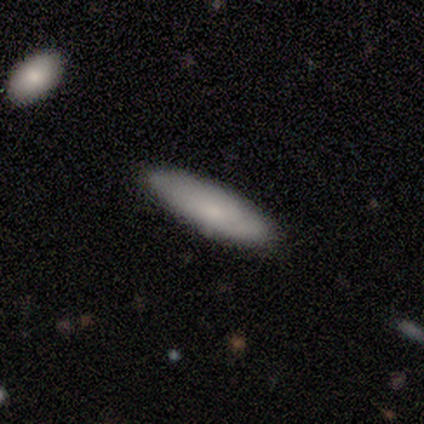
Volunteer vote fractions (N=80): Smooth or featured: smooth — 76% (featured or disk — 20%)
How rounded: in between — 56% (cigar-shaped — 44%)
Merging: none — 52% (minor disturbance — 5%)